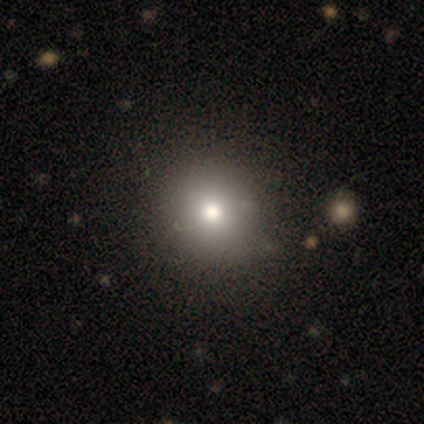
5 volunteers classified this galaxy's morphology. Smooth or featured? smooth (60%)
How rounded? round (100%)
Merging? none (75%)